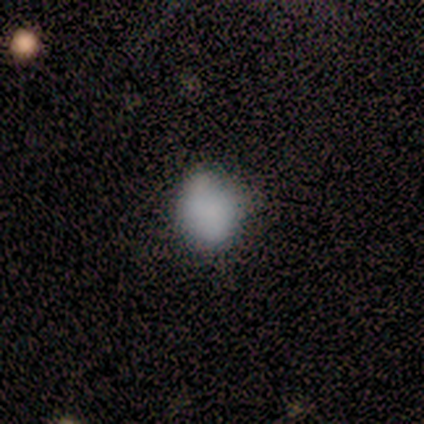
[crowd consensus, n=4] Morphology: type=smooth (100%); roundness=round (50%, tied with in between); merging=none (75%).